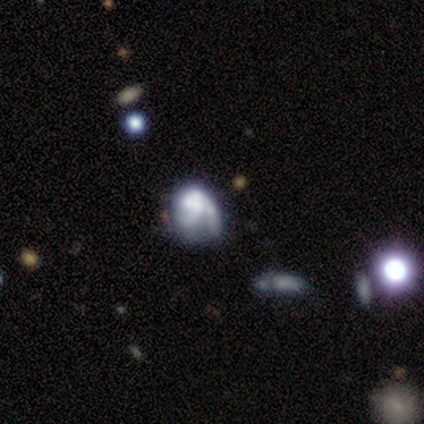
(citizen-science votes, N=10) Volunteers were most divided on "merging" (2-way tie): minor disturbance: 44%, major disturbance: 44%, none: 11%, merger: 0%. More confident: edge-on disk — no (100%); bar — no (100%); spiral winding — medium (100%); spiral arm count — 2 (100%); spiral arms — yes (83%); smooth or featured — featured or disk (60%); bulge size — none (50%).